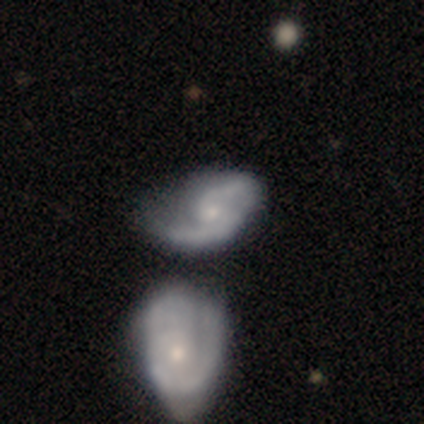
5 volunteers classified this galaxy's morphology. Smooth or featured: featured or disk — 100%
Edge-on disk: no — 100%
Bar: no — 80% (strong — 20%)
Spiral arms: yes — 100%
Spiral winding: medium — 60% (loose — 40%)
Spiral arm count: 2 — 100%
Bulge size: small — 100%
Merging: none — 40% (tied with minor disturbance — 40%)